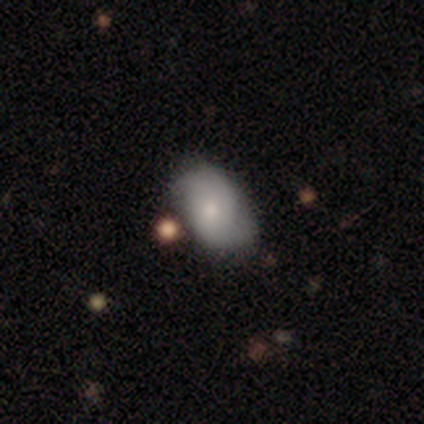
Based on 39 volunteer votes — Overall: smooth (56%; featured or disk 33%). How rounded: in between (82%). Merging: none (57%; minor disturbance 34%).